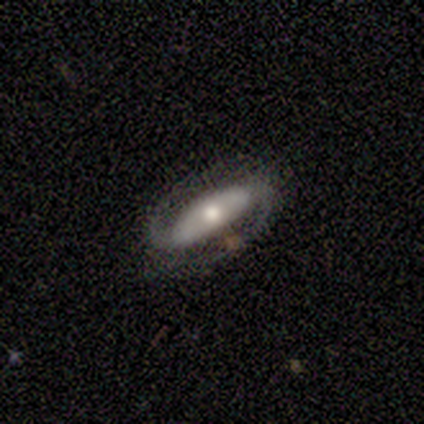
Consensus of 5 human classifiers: Overall: featured or disk (100%). Edge-on disk: no (100%). Bar: strong (80%). Spiral arms: yes (100%). Spiral arm count: 2 (100%). Spiral winding: tight (40%, tied with loose). Bulge size: large (40%, tied with moderate). Merging: none (60%; minor disturbance 40%).